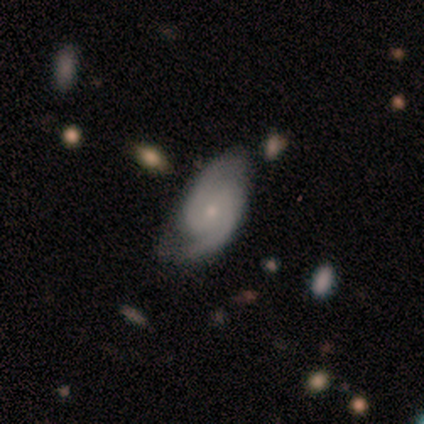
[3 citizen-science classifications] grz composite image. It shows a featured or disk galaxy (100%) with no bar (67%), 2 (100%) medium (67%) spiral arms (100%) and a small central bulge (100%). Merging: none (67%).